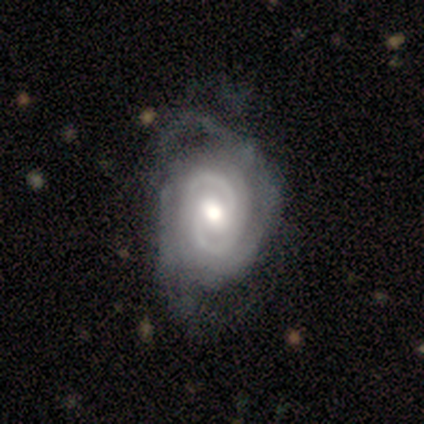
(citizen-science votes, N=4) smooth-or-featured: featured or disk: 100% | smooth: 0% | star or artifact: 0%
  disk-edge-on: no: 100% | yes: 0%
    bar: weak: 50% (tied) | no: 50% (tied) | strong: 0%
    has-spiral-arms: yes: 100% | no: 0%
      spiral-winding: tight: 75% | medium: 25% | loose: 0%
      spiral-arm-count: 2: 75% | can't tell: 25% | 1: 0% | 3: 0% | 4: 0% | more than 4: 0%
    bulge-size: moderate: 75% | large: 25% | dominant: 0% | small: 0% | none: 0%
  merging: none: 50% (tied) | minor disturbance: 50% (tied) | major disturbance: 0% | merger: 0%